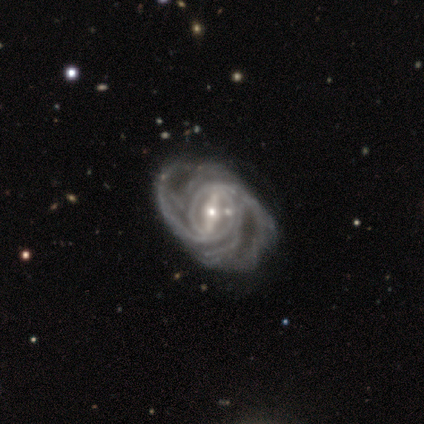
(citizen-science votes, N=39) smooth-or-featured: featured or disk: 100% | smooth: 0% | star or artifact: 0%
  disk-edge-on: no: 100% | yes: 0%
    bar: strong: 74% | weak: 15% | no: 10%
    has-spiral-arms: yes: 92% | no: 8%
      spiral-winding: medium: 44% | tight: 42% | loose: 14%
      spiral-arm-count: 2: 31% | can't tell: 28% | 3: 22% | more than 4: 14% | 4: 6% | 1: 0%
    bulge-size: small: 56% | moderate: 26% | large: 15% | none: 3% | dominant: 0%
  merging: none: 51% | minor disturbance: 21% | major disturbance: 21% | merger: 8%